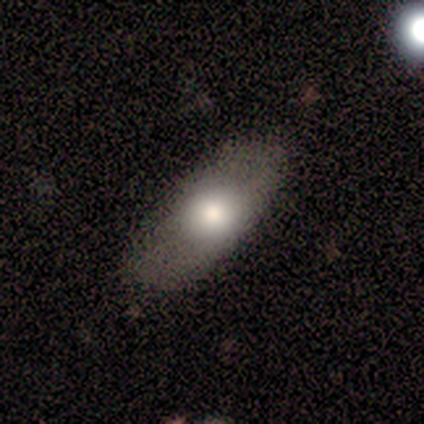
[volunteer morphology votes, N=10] smooth-or-featured: smooth: 70% | featured or disk: 30% | star or artifact: 0%
  how-rounded: in between: 86% | round: 14% | cigar-shaped: 0%
  merging: none: 70% | minor disturbance: 30% | major disturbance: 0% | merger: 0%